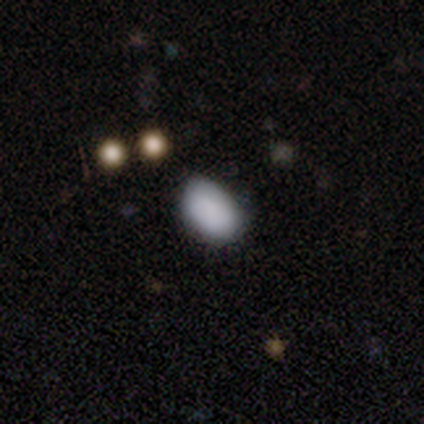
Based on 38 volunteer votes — Q: Smooth or featured?
A: smooth (79%); runner-up: featured or disk (11%)
Q: How rounded?
A: in between (93%); runner-up: round (7%)
Q: Merging?
A: none (50%); runner-up: minor disturbance (47%)